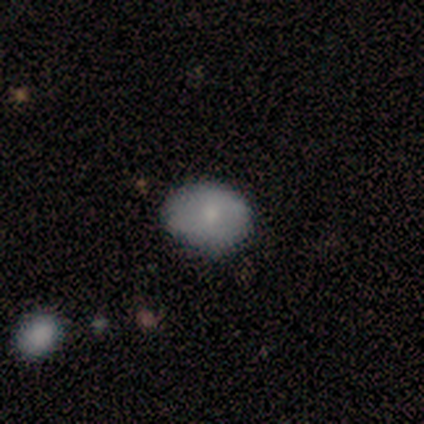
Overall: smooth (80%). How rounded: round (50%, tied with in between). Merging: none (100%).